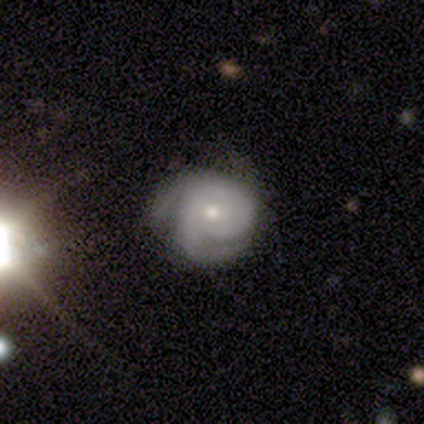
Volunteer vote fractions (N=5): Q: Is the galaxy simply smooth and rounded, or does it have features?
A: featured or disk — 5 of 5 (100%).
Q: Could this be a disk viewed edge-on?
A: no — 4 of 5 (80%).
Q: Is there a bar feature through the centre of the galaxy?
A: no — 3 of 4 (75%).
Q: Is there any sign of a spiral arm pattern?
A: yes — 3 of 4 (75%).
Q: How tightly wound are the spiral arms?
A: tight — 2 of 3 (67%).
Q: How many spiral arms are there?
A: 2 — 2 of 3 (67%).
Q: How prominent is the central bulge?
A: small — 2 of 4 (50%).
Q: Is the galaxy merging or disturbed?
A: none — 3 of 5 (60%).